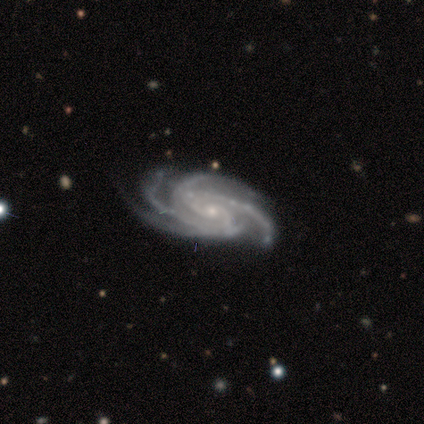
smooth_or_featured: featured or disk (p=1.00)
disk_edge_on: no (p=1.00)
bar: no (p=0.71) [alt: strong p=0.14]
has_spiral_arms: yes (p=1.00)
spiral_winding: tight (p=0.57) [alt: medium p=0.43]
spiral_arm_count: 4 (p=0.86) [alt: more than 4 p=0.14]
bulge_size: small (p=1.00)
merging: none (p=0.71) [alt: minor disturbance p=0.29]